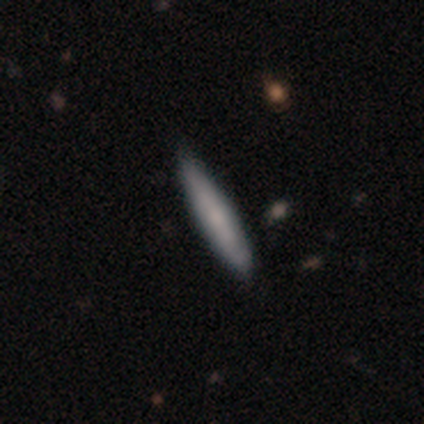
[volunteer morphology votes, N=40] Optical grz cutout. It shows a smooth galaxy with no disk features (70%) that is cigar-shaped (93%). Merging: none (79%).